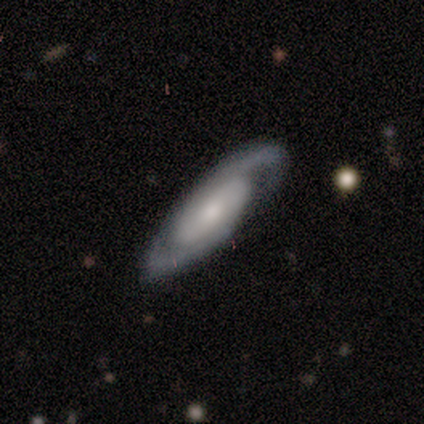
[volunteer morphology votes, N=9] A featured or disk galaxy (100%) with a weak bar (50%, tied with no), 2 (67%) tight (67%) spiral arms (100%) and a moderate central bulge (50%). Merging: none (89%).